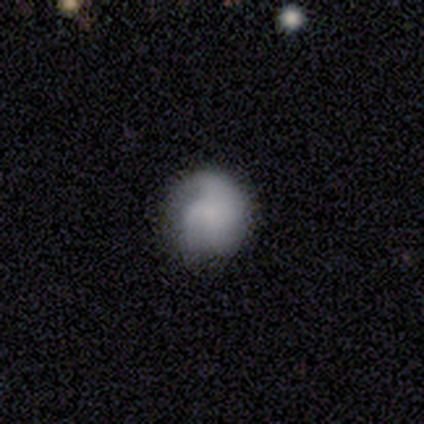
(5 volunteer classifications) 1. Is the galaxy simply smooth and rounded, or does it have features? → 80% smooth, 20% featured or disk, 0% star or artifact.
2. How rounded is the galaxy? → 75% round, 25% in between, 0% cigar-shaped.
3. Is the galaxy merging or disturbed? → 40% none (tied), 40% minor disturbance (tied), 20% major disturbance, 0% merger.